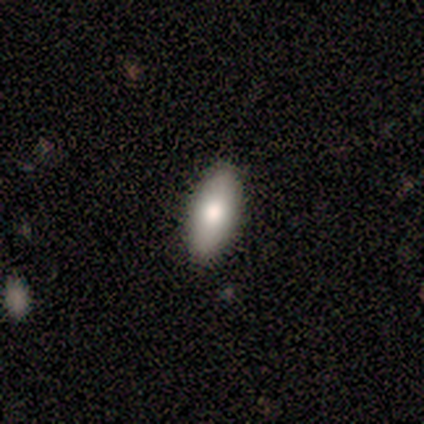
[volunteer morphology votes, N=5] This appears to be a smooth galaxy with no disk features (100%) that is in between round and cigar-shaped (80%). Merging: none (80%).